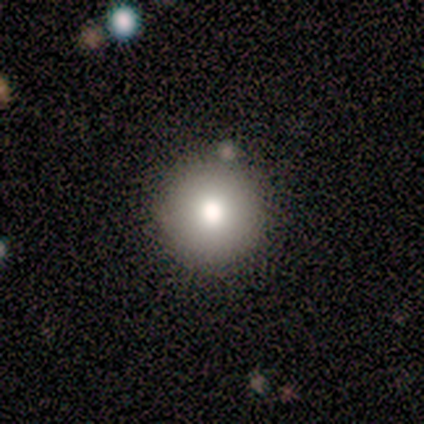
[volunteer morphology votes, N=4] smooth-or-featured: smooth: 100% | featured or disk: 0% | star or artifact: 0%
  how-rounded: round: 100% | in between: 0% | cigar-shaped: 0%
  merging: none: 75% | merger: 25% | minor disturbance: 0% | major disturbance: 0%